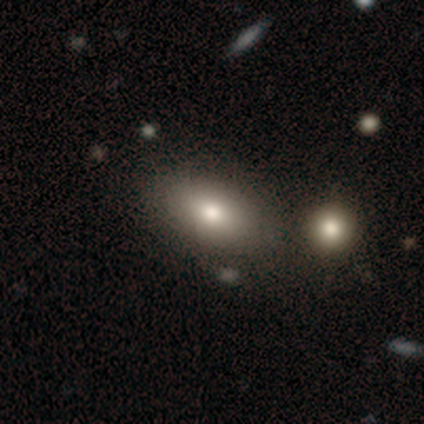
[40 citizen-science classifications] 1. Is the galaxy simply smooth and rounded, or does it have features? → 80% smooth, 12% featured or disk, 8% star or artifact.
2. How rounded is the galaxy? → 94% in between, 3% round, 3% cigar-shaped.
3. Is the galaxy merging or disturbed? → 46% none, 32% merger, 8% minor disturbance, 0% major disturbance.